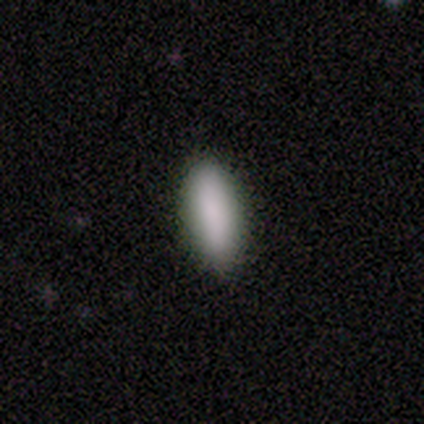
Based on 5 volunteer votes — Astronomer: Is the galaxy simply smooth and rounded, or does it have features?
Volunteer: smooth — 100%.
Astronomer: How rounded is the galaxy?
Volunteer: cigar-shaped — 60% (runner-up: in between, 40%).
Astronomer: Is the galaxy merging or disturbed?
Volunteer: none — 80%.